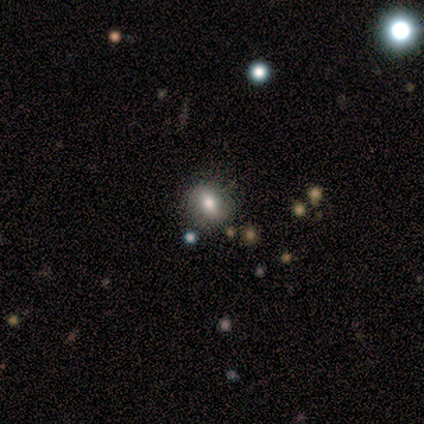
Overall: smooth (80%). How rounded: round (50%, tied with in between). Merging: none (100%).